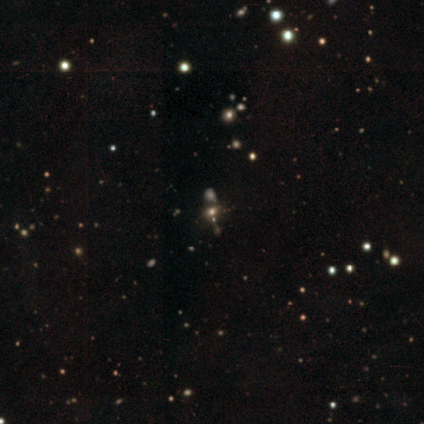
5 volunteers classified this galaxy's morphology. Smooth or featured: star or artifact — 80% (smooth — 20%)